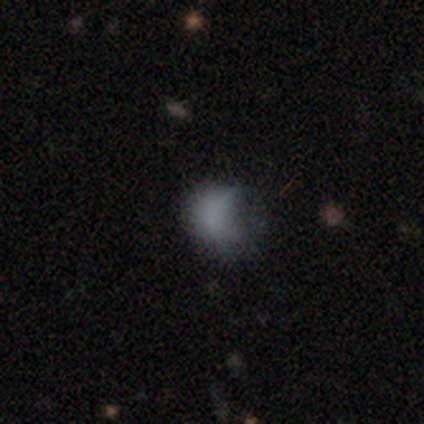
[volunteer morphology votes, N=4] type=smooth (50%); roundness=round (50%, tied with in between); merging=major disturbance (67%).